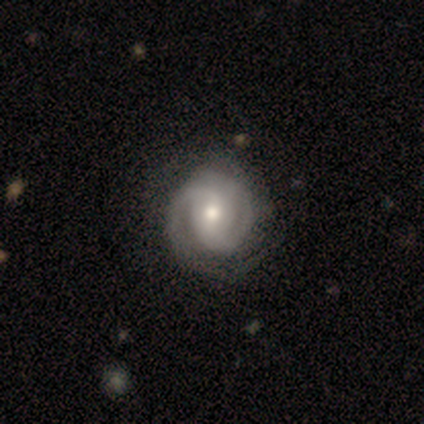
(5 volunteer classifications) smooth_or_featured: featured or disk (p=1.00)
disk_edge_on: no (p=1.00)
bar: no (p=0.60) [alt: weak p=0.40]
has_spiral_arms: yes (p=1.00)
spiral_winding: tight (p=0.80) [alt: medium p=0.20]
spiral_arm_count: 1 (p=0.40) [alt: 2 p=0.20]
bulge_size: moderate (p=0.60) [alt: small p=0.40]
merging: none (p=0.80) [alt: minor disturbance p=0.20]